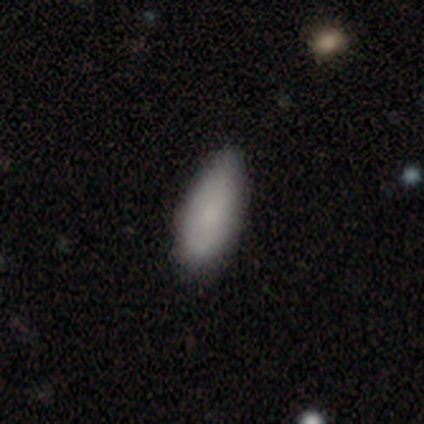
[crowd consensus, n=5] A smooth galaxy with no disk features (80%) that is in between round and cigar-shaped (100%). Merging: none (50%, tied with minor disturbance).